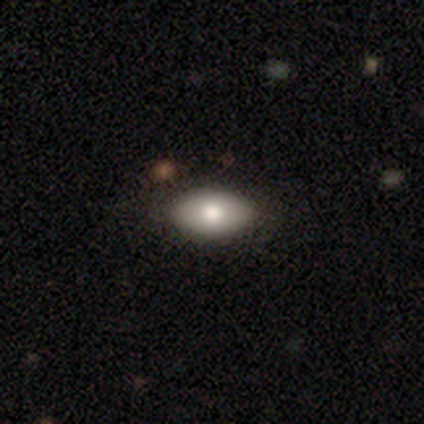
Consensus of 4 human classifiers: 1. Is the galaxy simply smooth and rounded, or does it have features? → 75% smooth, 25% featured or disk, 0% star or artifact.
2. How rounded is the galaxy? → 67% in between, 33% round, 0% cigar-shaped.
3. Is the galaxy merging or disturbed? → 75% none, 25% minor disturbance, 0% major disturbance, 0% merger.